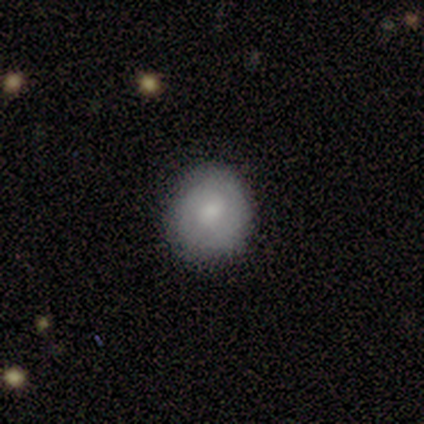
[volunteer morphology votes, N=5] A smooth galaxy with no disk features (80%) that is round (75%).

Vote fractions:
- Smooth or featured? smooth: 80% / star or artifact: 20% / featured or disk: 0%
- How rounded? round: 75% / in between: 25% / cigar-shaped: 0%
- Merging? none: 100% / minor disturbance: 0% / major disturbance: 0% / merger: 0%